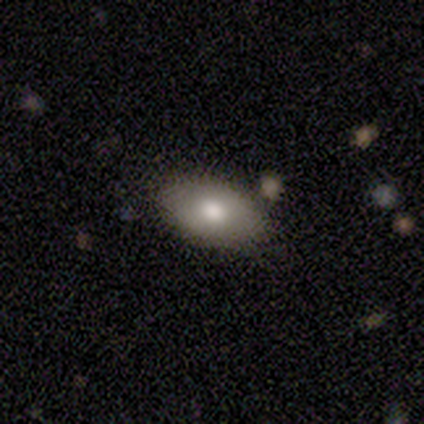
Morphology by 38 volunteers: This is likely a smooth galaxy (76%). How rounded: clearly in between (100%). Merging: clearly none (81%).